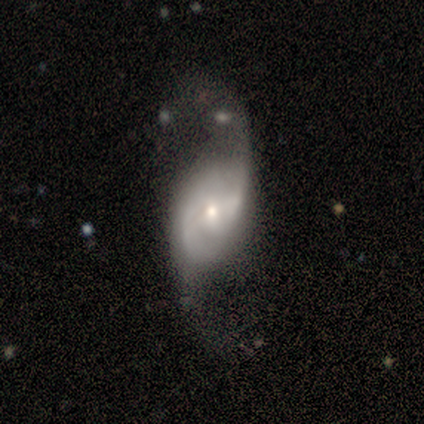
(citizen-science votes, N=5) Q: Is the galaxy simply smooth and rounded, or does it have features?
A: featured or disk — 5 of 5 (100%).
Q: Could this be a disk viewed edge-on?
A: no — 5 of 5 (100%).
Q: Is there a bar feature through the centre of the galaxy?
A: no — 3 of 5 (60%).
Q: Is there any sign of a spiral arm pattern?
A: yes — 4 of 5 (80%).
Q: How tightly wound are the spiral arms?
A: loose — 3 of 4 (75%).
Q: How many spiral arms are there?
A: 2 — 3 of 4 (75%).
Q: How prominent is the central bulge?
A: small — 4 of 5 (80%).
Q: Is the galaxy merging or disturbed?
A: major disturbance — 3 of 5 (60%).